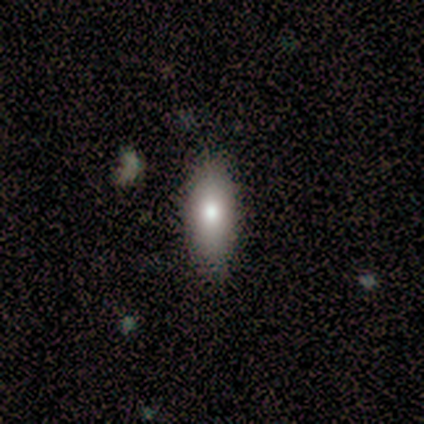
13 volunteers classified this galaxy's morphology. smooth-or-featured: smooth: 85% | featured or disk: 15% | star or artifact: 0%
  how-rounded: in between: 82% | cigar-shaped: 18% | round: 0%
  merging: none: 85% | minor disturbance: 15% | major disturbance: 0% | merger: 0%